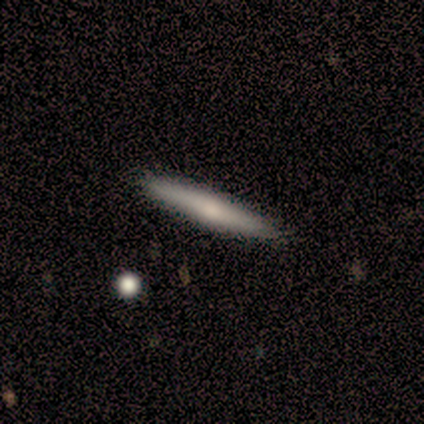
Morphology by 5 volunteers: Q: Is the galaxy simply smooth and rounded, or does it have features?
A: smooth — 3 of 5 (60%).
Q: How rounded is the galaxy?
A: cigar-shaped — 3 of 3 (100%).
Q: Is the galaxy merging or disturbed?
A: none — 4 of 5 (80%).